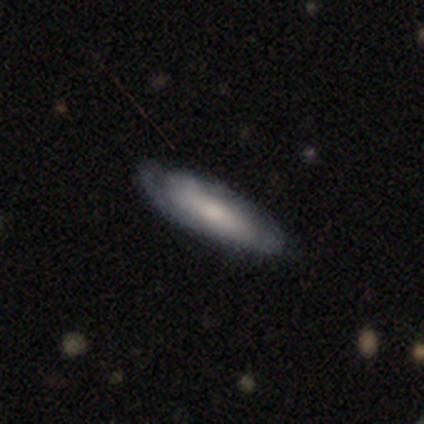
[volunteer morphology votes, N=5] Overall: featured or disk (60%; smooth 40%). Edge-on disk: no (67%; yes 33%). Bar: no (100%). Spiral arms: yes (100%). Spiral arm count: can't tell (100%). Spiral winding: tight (100%). Bulge size: moderate (100%). Merging: none (100%).